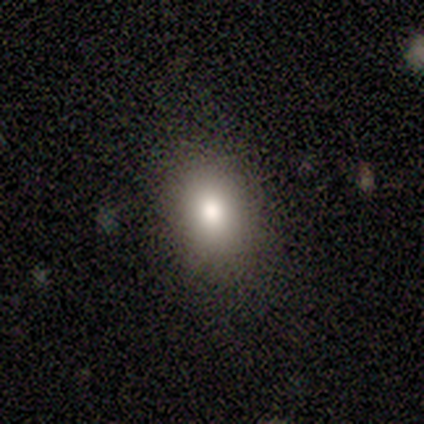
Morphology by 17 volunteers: Q: Smooth or featured?
A: smooth (76%); runner-up: star or artifact (18%)
Q: How rounded?
A: in between (85%); runner-up: round (15%)
Q: Merging?
A: none (86%); runner-up: minor disturbance (14%)